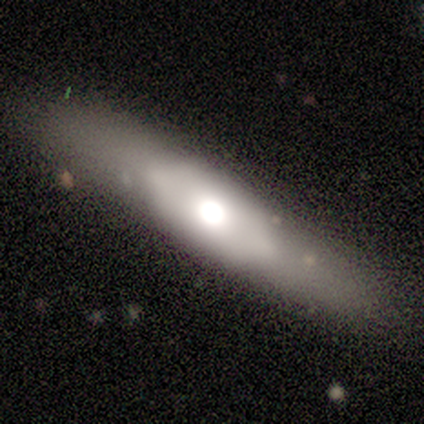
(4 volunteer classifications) Smooth or featured? featured or disk (75%)
Edge-on disk? yes (100%)
Edge-on bulge? rounded (100%)
Merging? none (50%)